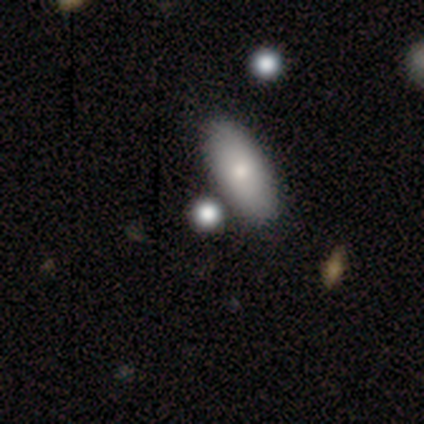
Smooth or featured? 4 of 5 (80%) said smooth. How rounded? 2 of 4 (50%) said in between. Merging? 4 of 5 (80%) said none.